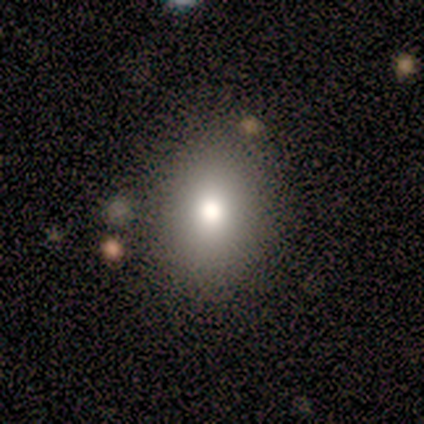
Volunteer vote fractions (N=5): Volunteers were most divided on "how rounded" (2-way tie): round: 50%, in between: 50%, cigar-shaped: 0%. More confident: merging — none (100%); smooth or featured — smooth (80%).